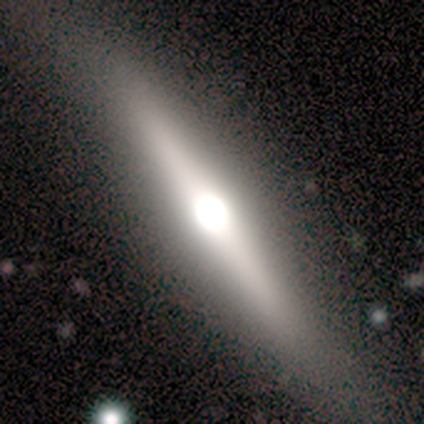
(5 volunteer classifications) Overall: featured or disk (60%; smooth 20%). Edge-on disk: yes (67%; no 33%). Edge-on bulge: rounded (100%). Merging: none (75%).